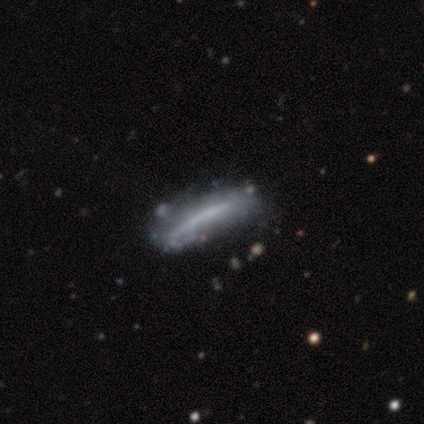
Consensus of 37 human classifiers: Q: Smooth or featured?
A: featured or disk (68%); runner-up: smooth (30%)
Q: Edge-on disk?
A: yes (56%); runner-up: no (44%)
Q: Edge-on bulge?
A: none (71%); runner-up: boxy (21%)
Q: Merging?
A: none (64%); runner-up: minor disturbance (17%)